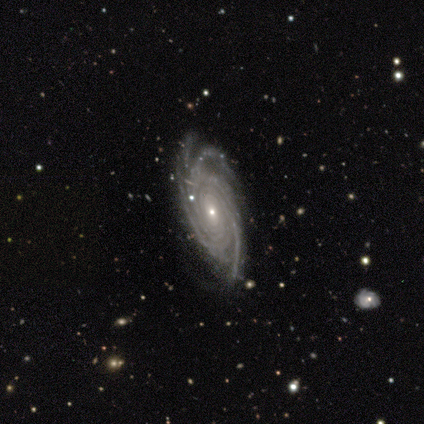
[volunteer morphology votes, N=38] type=featured or disk (95%); edge-on=no (94%); bar=no (65%); spiral arms=yes (100%); winding=tight (68%); arm count=4 (38%); bulge=small (85%); merging=none (78%).